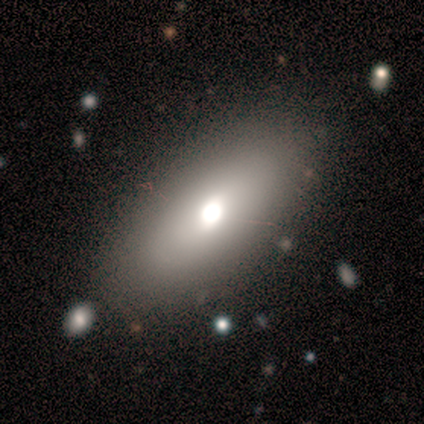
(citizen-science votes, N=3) smooth-or-featured: smooth: 100% | featured or disk: 0% | star or artifact: 0%
  how-rounded: in between: 67% | round: 33% | cigar-shaped: 0%
  merging: none: 33% (tied) | minor disturbance: 33% (tied) | major disturbance: 33% (tied) | merger: 0%